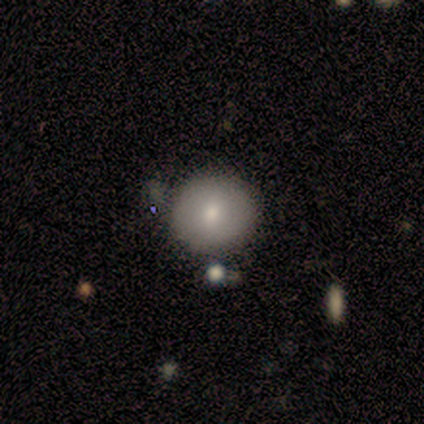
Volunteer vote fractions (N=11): A smooth galaxy with no disk features (100%) that is round (82%). Merging: none (55%).